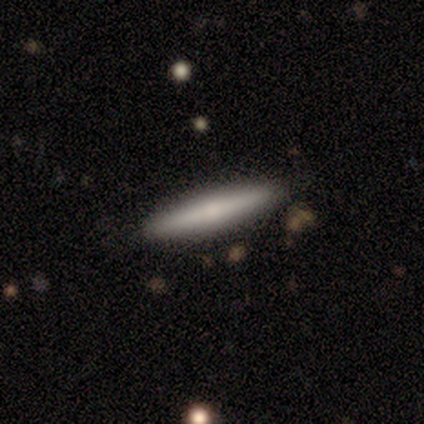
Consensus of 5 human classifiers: A featured or disk galaxy (60%) viewed edge-on (100%) with a rounded central bulge (67%). Merging: none (100%).